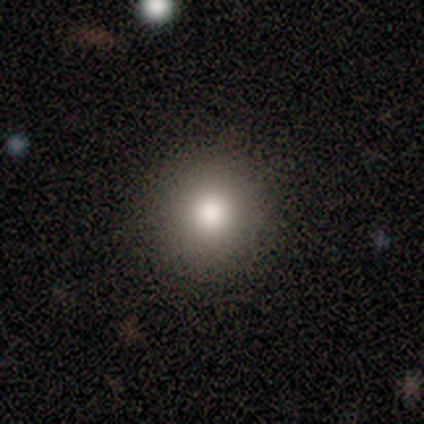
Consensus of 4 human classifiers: Smooth or featured?
  - smooth: 100% *
  - featured or disk: 0%
  - star or artifact: 0%
How rounded?
  - round: 100% *
  - in between: 0%
  - cigar-shaped: 0%
Merging?
  - none: 100% *
  - minor disturbance: 0%
  - major disturbance: 0%
  - merger: 0%